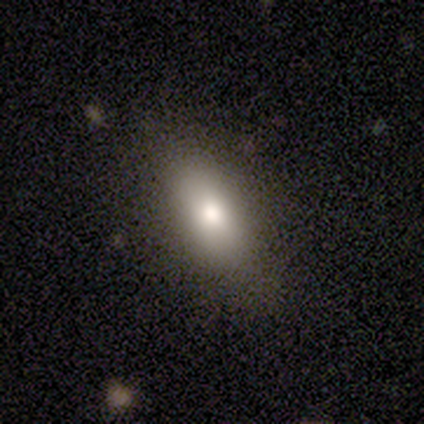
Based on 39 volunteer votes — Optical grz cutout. It shows a smooth galaxy with no disk features (77%) that is in between round and cigar-shaped (90%). Merging: none (84%).